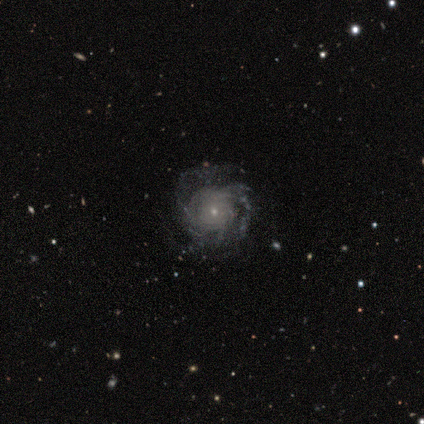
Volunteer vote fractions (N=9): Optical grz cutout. It shows a featured or disk galaxy (78%) with no bar (86%), tight (57%) spiral arms (100%) and a small central bulge (86%). Merging: none (62%).